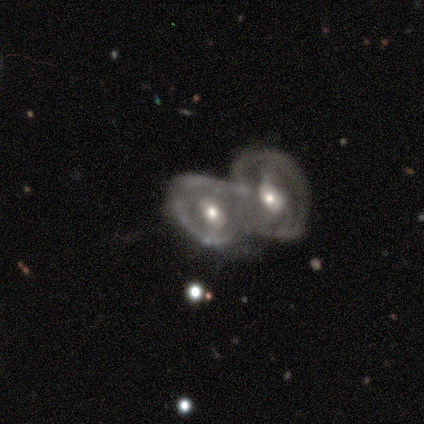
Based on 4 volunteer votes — Overall: smooth (75%). How rounded: round (100%). Merging: merger (100%).